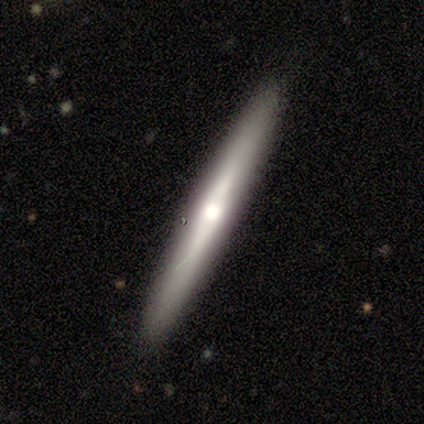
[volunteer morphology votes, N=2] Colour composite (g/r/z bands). It shows a featured or disk galaxy (100%) viewed edge-on (100%) with a rounded central bulge (100%). Merging: none (100%).